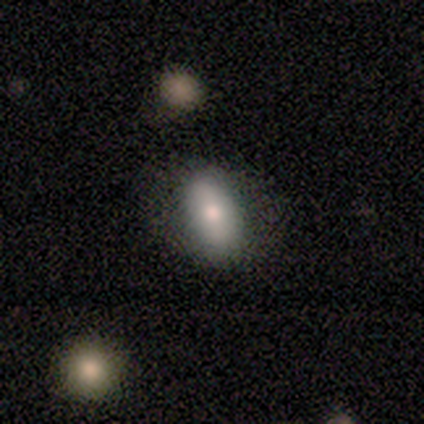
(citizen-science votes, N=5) A smooth galaxy with no disk features (100%) that is in between round and cigar-shaped (80%). Merging: minor disturbance (60%).